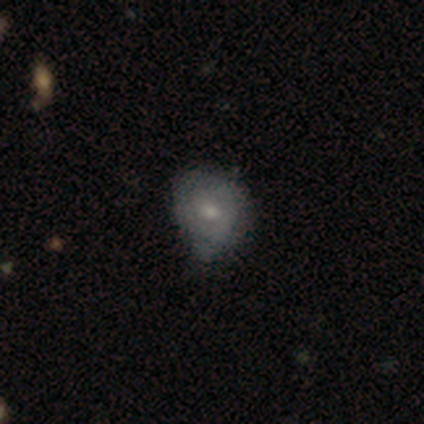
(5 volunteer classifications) Q: Smooth or featured?
A: smooth (80%); runner-up: featured or disk (20%)
Q: How rounded?
A: round (50%); tied with: in between (50%)
Q: Merging?
A: none (40%); tied with: minor disturbance (40%)